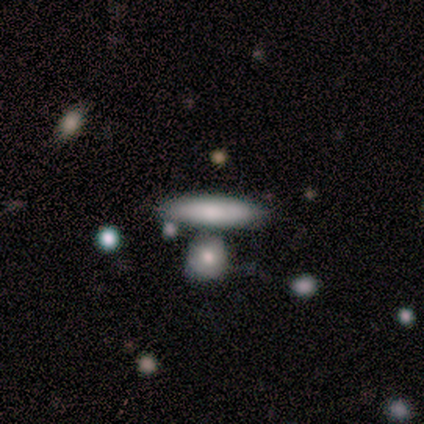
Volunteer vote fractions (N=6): smooth_or_featured: smooth (p=0.83) [alt: featured or disk p=0.17]
how_rounded: in between (p=0.80) [alt: cigar-shaped p=0.20]
merging: none (p=0.50) [alt: minor disturbance p=0.33]